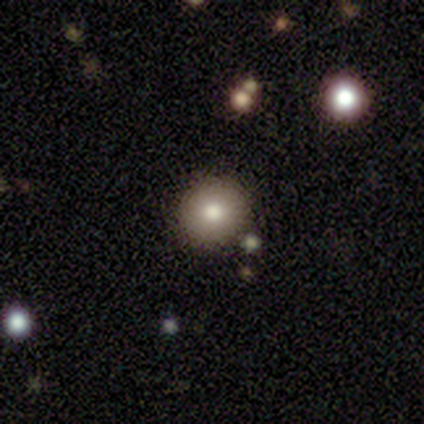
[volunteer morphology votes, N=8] Volunteers were most divided on "smooth or featured": smooth: 75%, featured or disk: 12%, star or artifact: 12%. More confident: merging — none (100%); how rounded — round (83%).